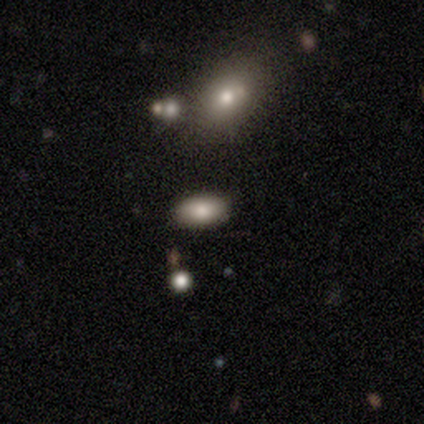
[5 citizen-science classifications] Q: Smooth or featured?
A: smooth (60%); runner-up: star or artifact (40%)
Q: How rounded?
A: in between (100%)
Q: Merging?
A: none (67%); runner-up: minor disturbance (33%)